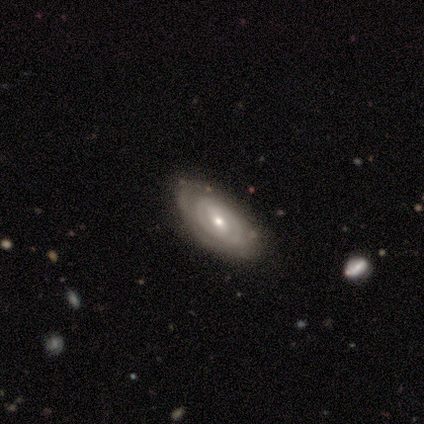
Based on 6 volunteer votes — This appears to be a featured or disk galaxy (83%) with a weak bar (40%, tied with no), tight (80%) spiral arms (100%) and a small central bulge (60%). Merging: none (100%).